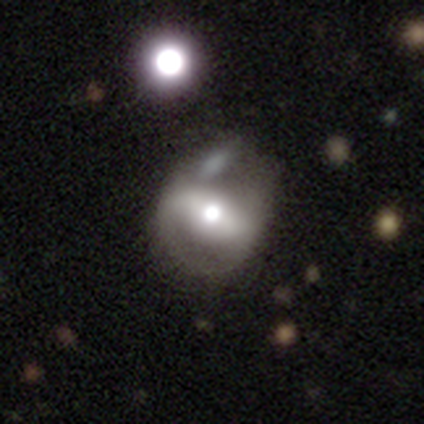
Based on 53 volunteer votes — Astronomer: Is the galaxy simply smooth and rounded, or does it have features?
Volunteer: featured or disk — 60%.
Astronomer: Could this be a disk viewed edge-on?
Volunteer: no — 100%.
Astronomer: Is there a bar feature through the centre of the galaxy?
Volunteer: strong — 72%.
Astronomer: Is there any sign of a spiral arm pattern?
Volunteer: yes — 59% (runner-up: no, 41%).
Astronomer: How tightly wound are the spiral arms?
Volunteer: medium — 47% (runner-up: tight, 42%).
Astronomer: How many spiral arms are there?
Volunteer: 2 — 68%.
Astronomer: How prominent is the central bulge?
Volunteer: moderate — 62%.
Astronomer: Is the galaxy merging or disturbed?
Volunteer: none — 39% (runner-up: minor disturbance, 27%).